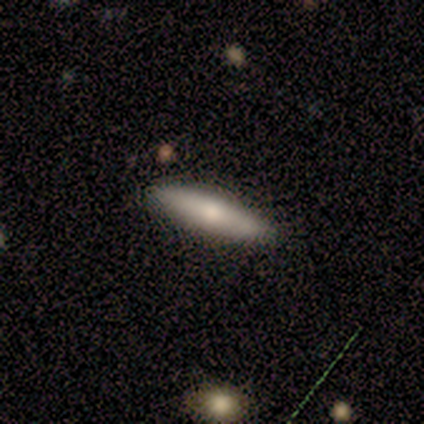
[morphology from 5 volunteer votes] Smooth or featured? 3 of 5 (60%) said featured or disk. Edge-on disk? 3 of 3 (100%) said yes. Edge-on bulge? 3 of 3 (100%) said rounded. Merging? 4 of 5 (80%) said none.